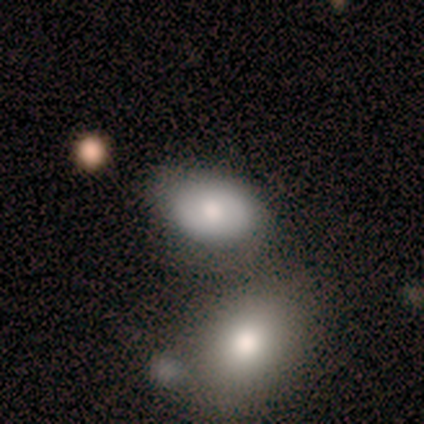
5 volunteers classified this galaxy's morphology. A smooth galaxy with no disk features (100%) that is in between round and cigar-shaped (100%).

Vote fractions:
- Smooth or featured? smooth: 100% / featured or disk: 0% / star or artifact: 0%
- How rounded? in between: 100% / round: 0% / cigar-shaped: 0%
- Merging? none: 60% / merger: 40% / minor disturbance: 0% / major disturbance: 0%